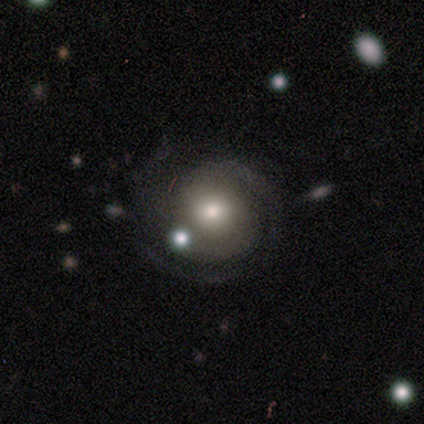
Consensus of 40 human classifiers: Overall: featured or disk (80%). Edge-on disk: no (100%). Bar: no (81%). Spiral arms: yes (91%). Spiral arm count: 2 (52%; 3 21%). Spiral winding: tight (79%). Bulge size: moderate (69%). Merging: none (54%).